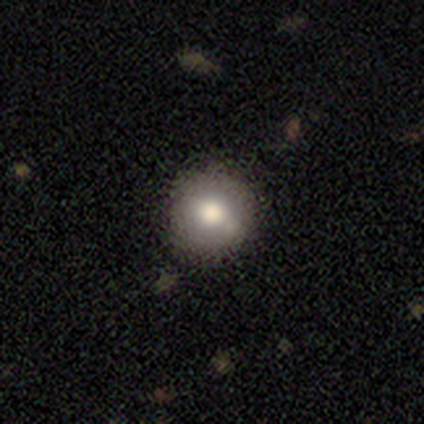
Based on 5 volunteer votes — Morphology: type=smooth (100%); roundness=round (80%); merging=none (100%).